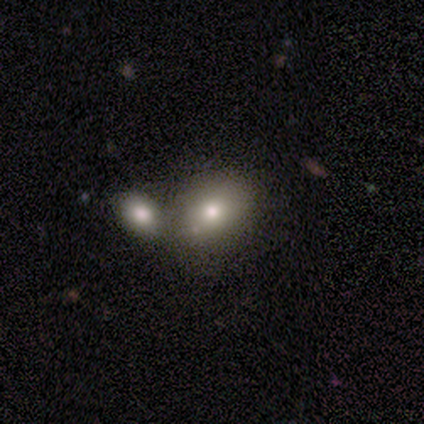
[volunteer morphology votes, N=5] smooth-or-featured: smooth: 80% | star or artifact: 20% | featured or disk: 0%
  how-rounded: round: 75% | in between: 25% | cigar-shaped: 0%
  merging: none: 75% | merger: 25% | minor disturbance: 0% | major disturbance: 0%